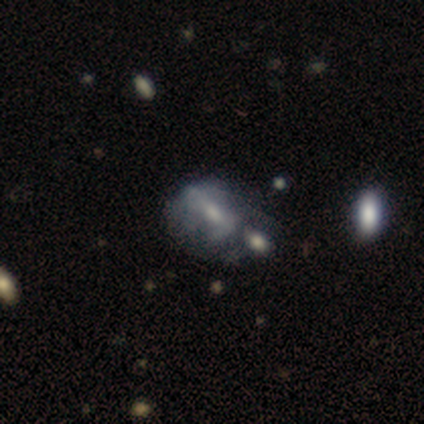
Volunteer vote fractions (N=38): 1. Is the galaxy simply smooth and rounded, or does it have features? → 61% featured or disk, 37% smooth, 3% star or artifact.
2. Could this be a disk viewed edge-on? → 87% no, 13% yes.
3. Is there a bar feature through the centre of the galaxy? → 50% weak, 30% no, 20% strong.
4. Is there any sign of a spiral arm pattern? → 60% no, 40% yes.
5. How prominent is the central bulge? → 50% small, 35% moderate, 15% none, 0% dominant, 0% large.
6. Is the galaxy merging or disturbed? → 54% merger, 16% minor disturbance, 16% major disturbance, 14% none.